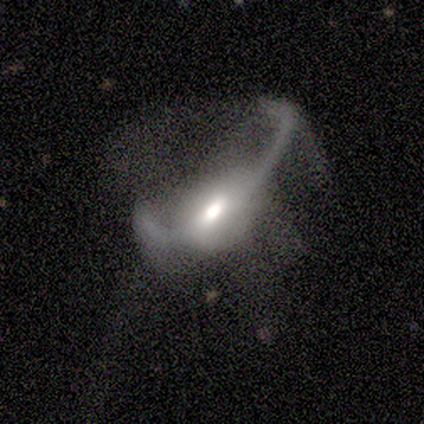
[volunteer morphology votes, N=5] featured or disk 100%, smooth 0%, star or artifact 0%. Down the decision tree: edge-on disk — no (60%); bar — strong (33%, tied with weak and no); spiral arms — yes (67%); spiral arm count — 2 (100%); spiral winding — loose (100%); bulge size — moderate (67%); merging — major disturbance (60%).